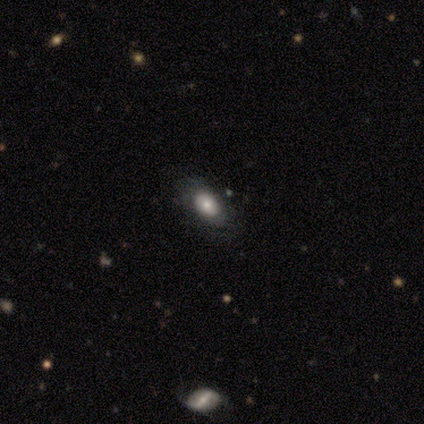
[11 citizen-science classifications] Smooth or featured: smooth — 73% (featured or disk — 18%)
How rounded: in between — 88% (round — 12%)
Merging: none — 70% (major disturbance — 20%)